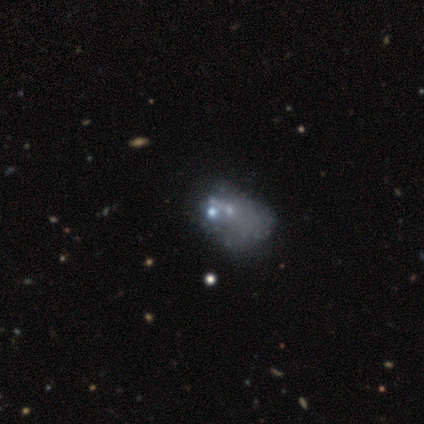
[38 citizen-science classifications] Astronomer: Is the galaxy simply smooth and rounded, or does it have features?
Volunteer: featured or disk — 66%.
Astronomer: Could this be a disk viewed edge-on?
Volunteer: no — 100%.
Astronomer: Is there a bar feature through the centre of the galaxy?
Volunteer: no — 100%.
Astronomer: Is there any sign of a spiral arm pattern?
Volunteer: no — 92%.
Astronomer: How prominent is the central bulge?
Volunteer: none — 64%.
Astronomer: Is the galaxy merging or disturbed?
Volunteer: major disturbance — 41% (runner-up: none, 21%).